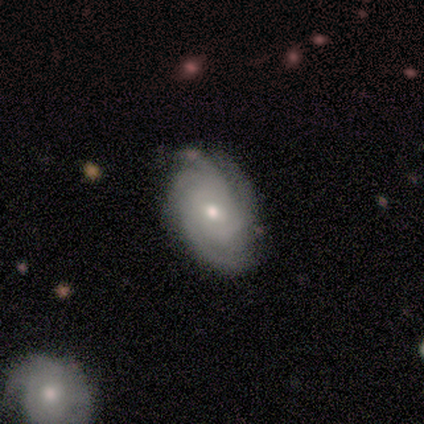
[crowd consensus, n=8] Overall: featured or disk (100%). Edge-on disk: no (100%). Bar: no (62%; weak 38%). Spiral arms: yes (100%). Spiral arm count: 4 (50%; more than 4 25%). Spiral winding: tight (62%; medium 38%). Bulge size: moderate (50%, tied with small). Merging: none (62%; minor disturbance 38%).